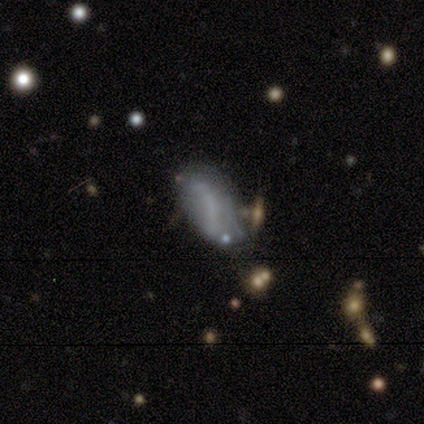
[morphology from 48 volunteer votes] type=smooth (54%); roundness=in between (92%); merging=minor disturbance (42%).